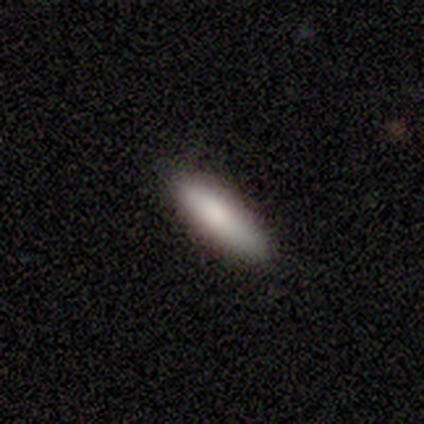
Morphology: type=smooth (100%); roundness=cigar-shaped (60%); merging=none (100%).